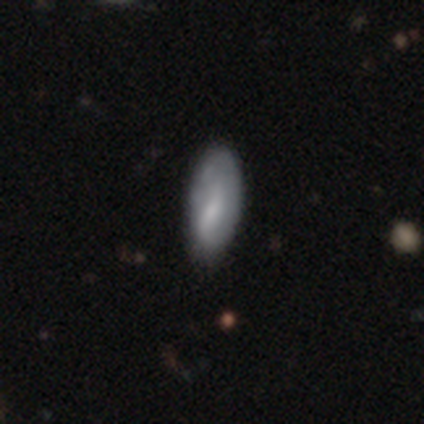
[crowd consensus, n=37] smooth_or_featured: smooth (p=0.65) [alt: featured or disk p=0.32]
how_rounded: in between (p=0.83) [alt: cigar-shaped p=0.12]
merging: none (p=0.72) [alt: minor disturbance p=0.19]